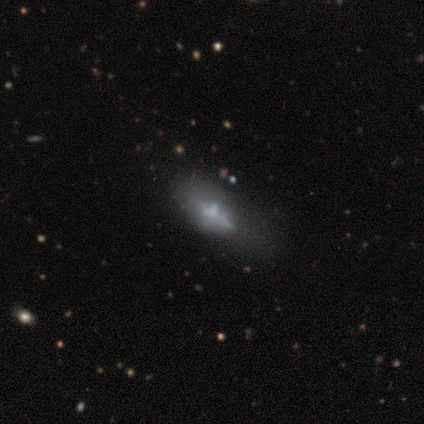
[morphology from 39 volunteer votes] This appears to be a featured or disk galaxy (56%) with no bar (83%), no spiral arms (83%) and no central bulge (72%). Merging: minor disturbance (44%).